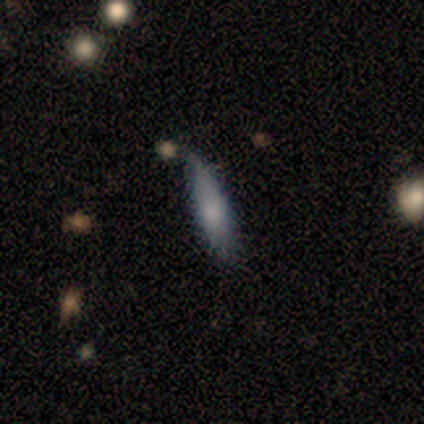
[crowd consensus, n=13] Morphology: type=smooth (85%); roundness=cigar-shaped (55%); merging=minor disturbance (58%).